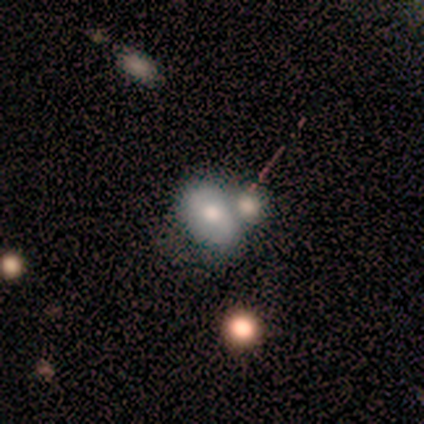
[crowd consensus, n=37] Smooth or featured? smooth (51%)
How rounded? in between (89%)
Merging? merger (61%)